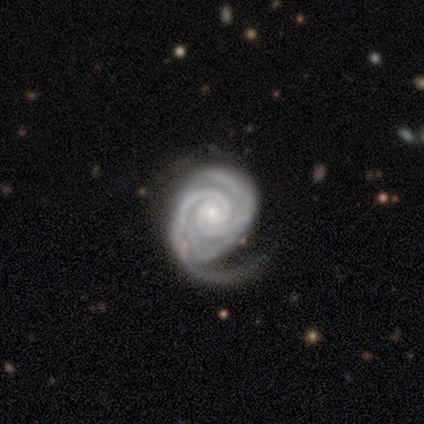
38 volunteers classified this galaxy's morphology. type=featured or disk (89%); edge-on=no (100%); bar=no (74%); spiral arms=yes (100%); winding=tight (74%); arm count=2 (44%); bulge=small (82%); merging=none (46%).